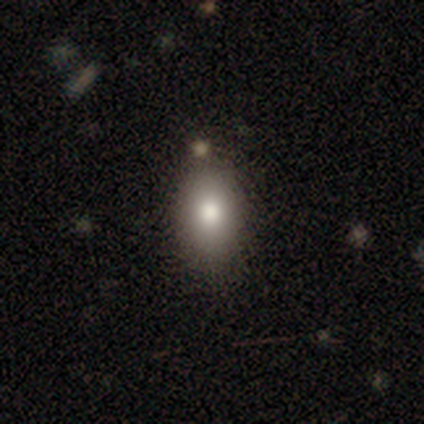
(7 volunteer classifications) A smooth galaxy with no disk features (71%) that is in between round and cigar-shaped (100%). Merging: none (83%).